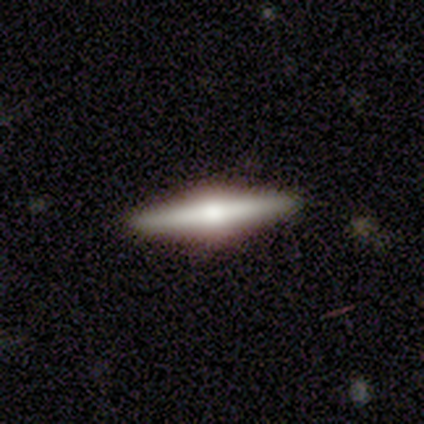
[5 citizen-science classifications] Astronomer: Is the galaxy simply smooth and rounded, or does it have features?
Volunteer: featured or disk — 60% (runner-up: star or artifact, 40%).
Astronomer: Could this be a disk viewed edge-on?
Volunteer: yes — 100%.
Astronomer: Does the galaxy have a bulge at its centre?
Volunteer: rounded — 100%.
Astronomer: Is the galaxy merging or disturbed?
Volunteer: none — 100%.